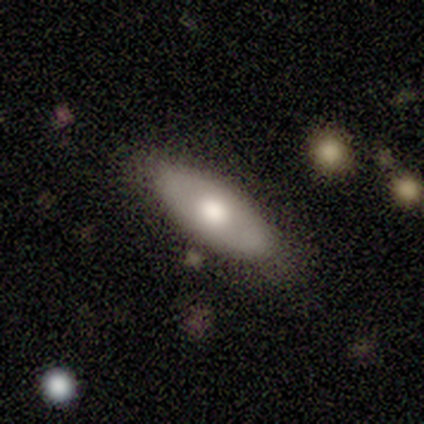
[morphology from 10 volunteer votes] Smooth or featured?
  - smooth: 80% *
  - featured or disk: 10%
  - star or artifact: 10%
How rounded?
  - in between: 88% *
  - cigar-shaped: 12%
  - round: 0%
Merging?
  - none: 67% *
  - minor disturbance: 22%
  - merger: 11%
  - major disturbance: 0%